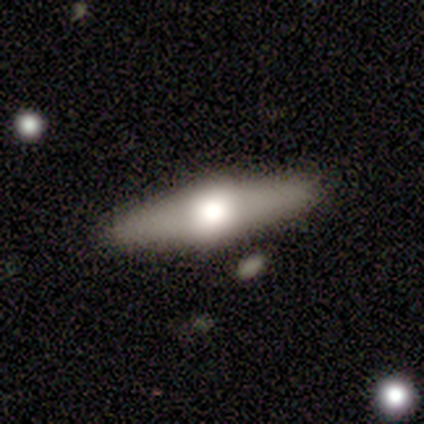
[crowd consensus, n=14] Volunteers were most divided on "smooth or featured" (2-way tie): smooth: 50%, featured or disk: 50%, star or artifact: 0%. More confident: merging — none (93%); how rounded — cigar-shaped (71%).